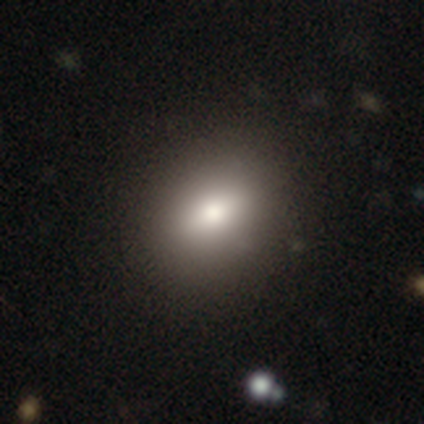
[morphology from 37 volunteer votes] smooth 68%, featured or disk 22%, star or artifact 11%. Down the decision tree: how rounded — in between (68%); merging — none (94%).